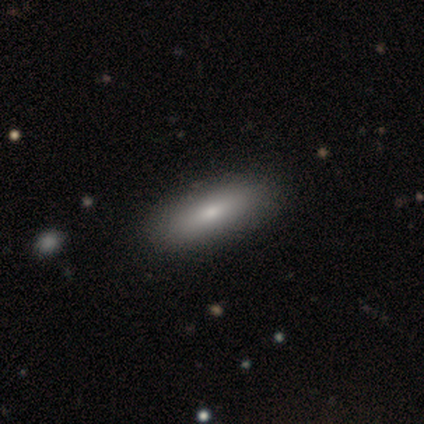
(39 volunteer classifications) Smooth or featured: smooth — 79% (featured or disk — 18%)
How rounded: in between — 65% (cigar-shaped — 35%)
Merging: none — 61%